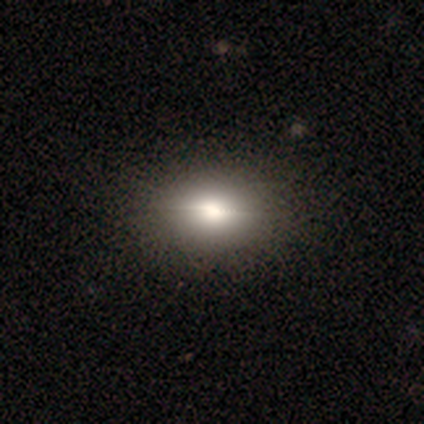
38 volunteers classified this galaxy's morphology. Smooth or featured?
  - smooth: 61% *
  - featured or disk: 37%
  - star or artifact: 3%
How rounded?
  - in between: 70% *
  - round: 22%
  - cigar-shaped: 9%
Merging?
  - none: 57% *
  - minor disturbance: 5%
  - merger: 3%
  - major disturbance: 0%